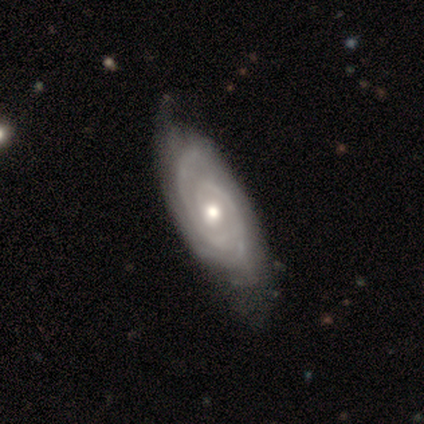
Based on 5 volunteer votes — This is clearly a featured or disk galaxy (100%). It is clearly not viewed edge-on (100%). Bar: likely no (60%). Spiral arm pattern: clearly yes (100%). Spiral arm count: likely 2 (60%). Spiral winding: likely medium (60%). Central bulge: clearly moderate (80%). Merging: likely none (60%).